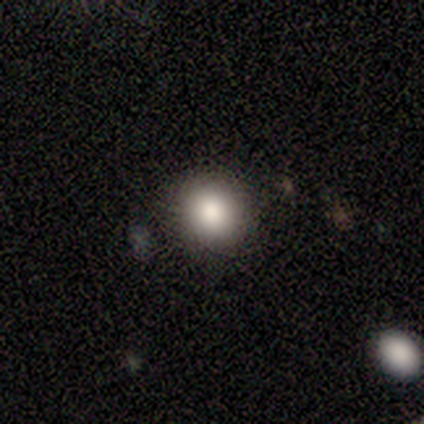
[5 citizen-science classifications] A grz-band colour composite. It shows a smooth galaxy with no disk features (60%) that is round (67%). Merging: none (100%).